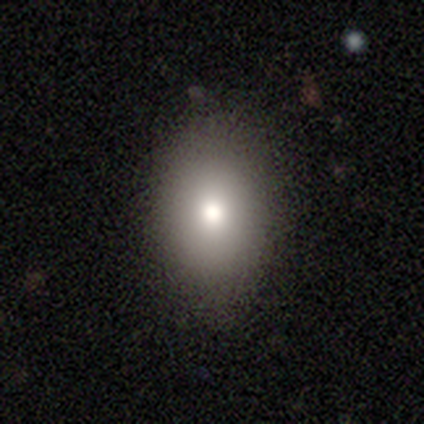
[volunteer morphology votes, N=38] This appears to be a smooth galaxy with no disk features (71%) that is in between round and cigar-shaped (74%). Merging: none (91%).